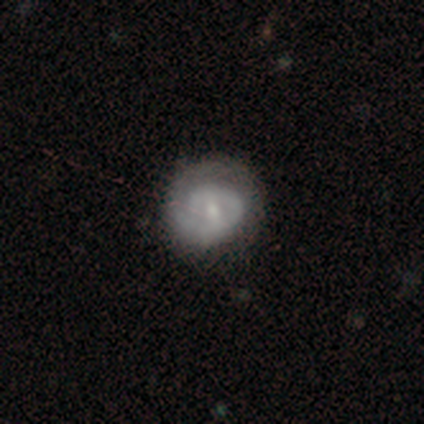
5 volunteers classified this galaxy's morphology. Volunteers were most divided on "smooth or featured": featured or disk: 60%, smooth: 40%, star or artifact: 0%. More confident: edge-on disk — no (100%); spiral arms — yes (100%); spiral winding — tight (100%); merging — none (80%); bar — no (67%); spiral arm count — 1 (67%); bulge size — small (67%).